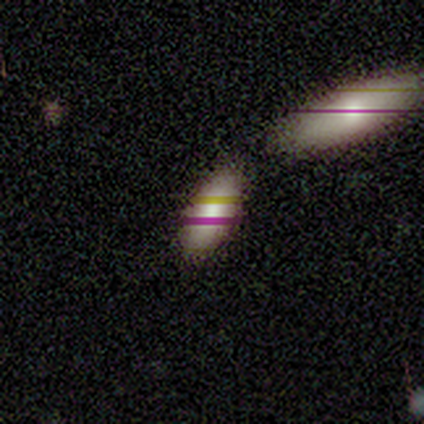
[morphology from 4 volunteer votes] smooth_or_featured: smooth (p=1.00)
how_rounded: in between (p=1.00)
merging: none (p=0.75) [alt: minor disturbance p=0.25]